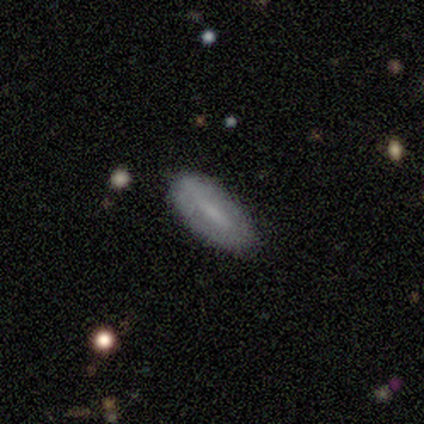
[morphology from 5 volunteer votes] smooth-or-featured: smooth: 60% | featured or disk: 40% | star or artifact: 0%
  how-rounded: in between: 67% | cigar-shaped: 33% | round: 0%
  merging: none: 100% | minor disturbance: 0% | major disturbance: 0% | merger: 0%